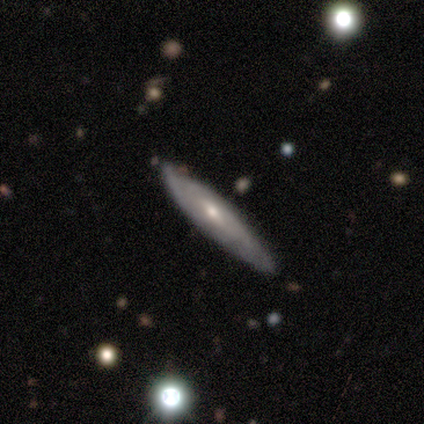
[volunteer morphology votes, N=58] Q: Smooth or featured?
A: featured or disk (67%); runner-up: smooth (29%)
Q: Edge-on disk?
A: no (56%); runner-up: yes (44%)
Q: Bar?
A: weak (50%); runner-up: no (36%)
Q: Spiral arms?
A: yes (68%); runner-up: no (32%)
Q: Spiral winding?
A: tight (67%); runner-up: medium (27%)
Q: Spiral arm count?
A: can't tell (53%); runner-up: 2 (27%)
Q: Bulge size?
A: moderate (59%); runner-up: small (36%)
Q: Merging?
A: none (68%); runner-up: minor disturbance (25%)